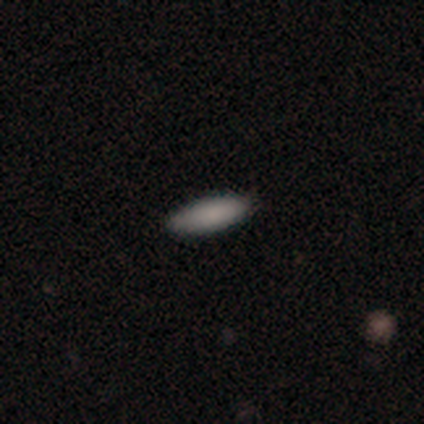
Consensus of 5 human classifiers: Overall: smooth (100%). How rounded: in between (80%). Merging: none (80%).